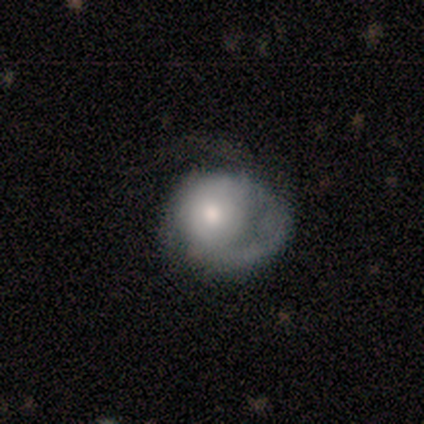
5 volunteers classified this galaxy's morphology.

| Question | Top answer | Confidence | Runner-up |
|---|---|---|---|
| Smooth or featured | smooth | 80% | featured or disk (20%) |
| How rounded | round | 100% | — |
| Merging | major disturbance | 80% | none (20%) |